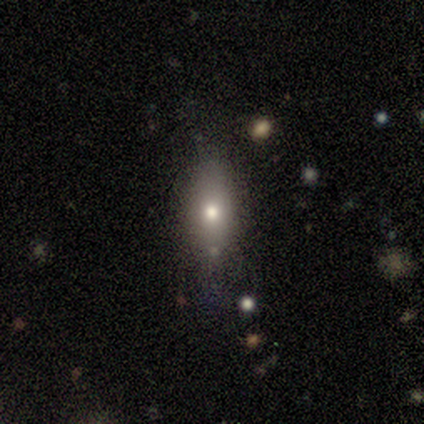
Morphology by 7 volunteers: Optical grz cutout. It shows a smooth galaxy with no disk features (71%) that is in between round and cigar-shaped (100%). Merging: none (86%).